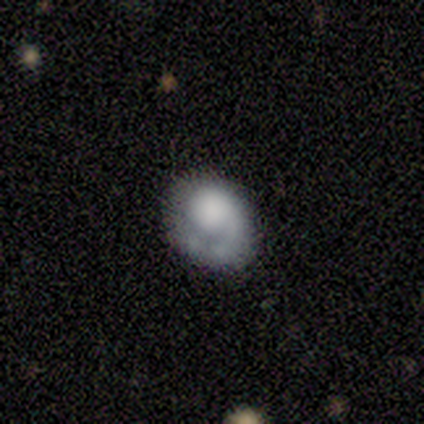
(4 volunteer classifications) smooth 50% (tied), featured or disk 50% (tied), star or artifact 0%. Down the decision tree: how rounded — round (50%, tied with in between); merging — none (50%, tied with minor disturbance).